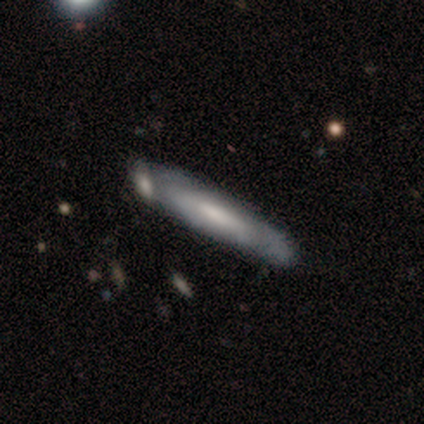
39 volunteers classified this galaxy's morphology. Smooth or featured? featured or disk (51%)
Edge-on disk? no (65%)
Bar? no (54%)
Spiral arms? no (54%)
Bulge size? moderate (54%)
Merging? none (53%)